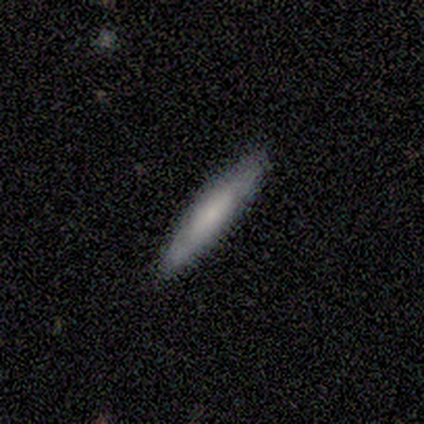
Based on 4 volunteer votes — Smooth or featured? 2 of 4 (50%, tied with featured or disk) said smooth. How rounded? 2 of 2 (100%) said cigar-shaped. Merging? 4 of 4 (100%) said none.